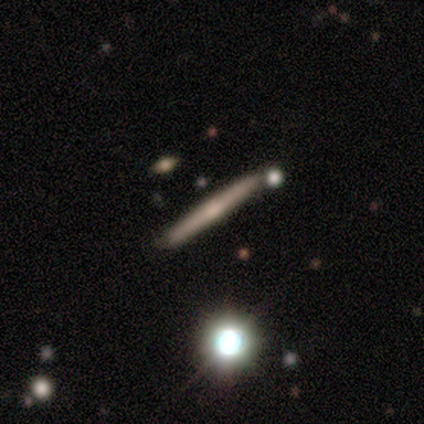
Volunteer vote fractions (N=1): Q: Smooth or featured?
A: featured or disk (100%)
Q: Edge-on disk?
A: yes (100%)
Q: Edge-on bulge?
A: rounded (100%)
Q: Merging?
A: minor disturbance (100%)